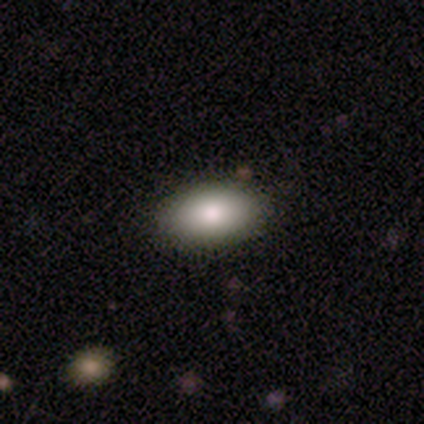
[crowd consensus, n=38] smooth-or-featured: smooth: 84% | featured or disk: 8% | star or artifact: 8%
  how-rounded: in between: 94% | round: 3% | cigar-shaped: 3%
  merging: none: 91% | minor disturbance: 6% | merger: 3% | major disturbance: 0%